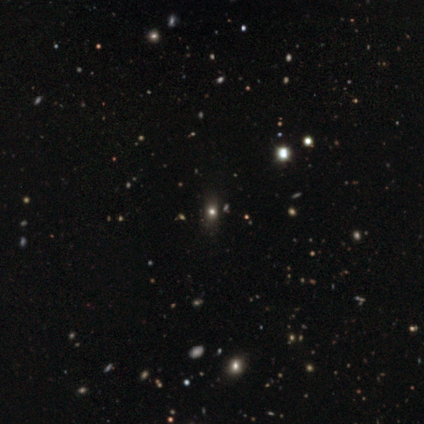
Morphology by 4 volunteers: smooth-or-featured: smooth: 100% | featured or disk: 0% | star or artifact: 0%
  how-rounded: round: 50% (tied) | in between: 50% (tied) | cigar-shaped: 0%
  merging: none: 100% | minor disturbance: 0% | major disturbance: 0% | merger: 0%